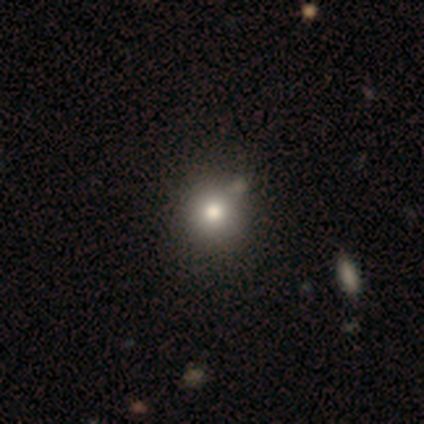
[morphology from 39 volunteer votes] smooth_or_featured: smooth (p=0.85) [alt: featured or disk p=0.10]
how_rounded: round (p=0.91) [alt: in between p=0.09]
merging: none (p=0.78) [alt: minor disturbance p=0.05]